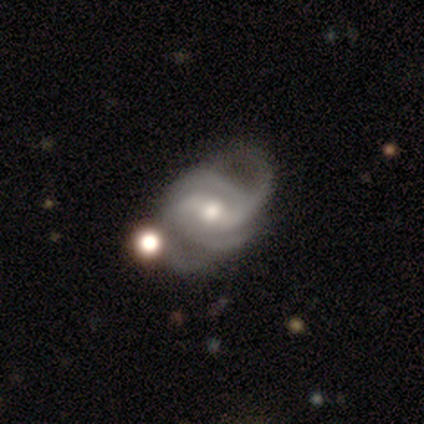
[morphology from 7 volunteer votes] Overall: featured or disk (100%). Edge-on disk: no (100%). Bar: no (57%; strong 29%). Spiral arms: yes (100%). Spiral arm count: 2 (57%). Spiral winding: medium (57%; loose 29%). Bulge size: moderate (100%). Merging: none (43%; minor disturbance 29%).